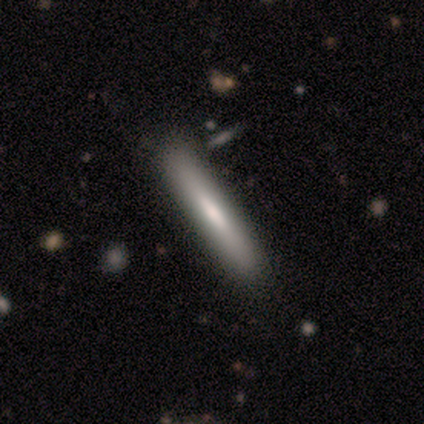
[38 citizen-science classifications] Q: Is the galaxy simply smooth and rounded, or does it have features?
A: smooth — 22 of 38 (58%).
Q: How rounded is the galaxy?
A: cigar-shaped — 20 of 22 (91%).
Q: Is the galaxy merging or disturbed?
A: none — 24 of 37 (65%).